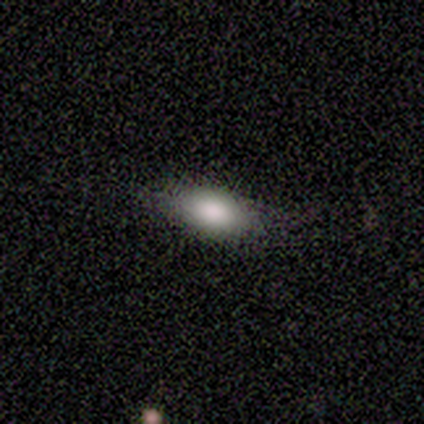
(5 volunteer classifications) Morphology: type=smooth (60%); roundness=in between (100%); merging=none (50%, tied with minor disturbance).